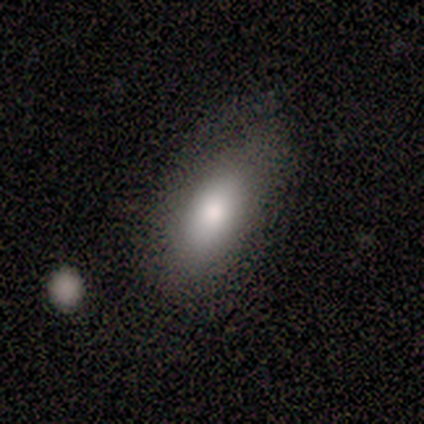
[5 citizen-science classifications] A smooth galaxy with no disk features (100%) that is in between round and cigar-shaped (100%).

Vote fractions:
- Smooth or featured? smooth: 100% / featured or disk: 0% / star or artifact: 0%
- How rounded? in between: 100% / round: 0% / cigar-shaped: 0%
- Merging? none: 80% / merger: 20% / minor disturbance: 0% / major disturbance: 0%